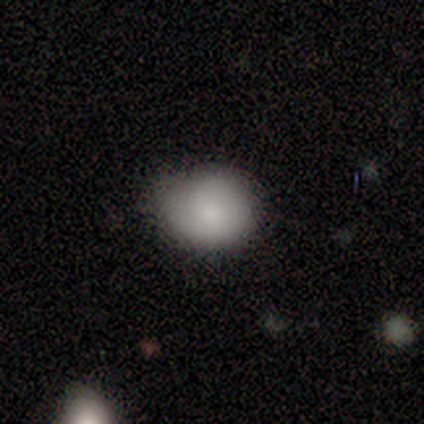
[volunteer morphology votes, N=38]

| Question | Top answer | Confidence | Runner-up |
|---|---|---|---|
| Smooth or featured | smooth | 82% | featured or disk (16%) |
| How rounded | round | 81% | in between (19%) |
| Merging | none | 73% | minor disturbance (22%) |